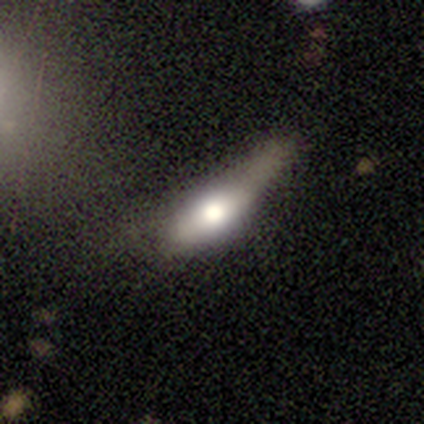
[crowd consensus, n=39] Smooth or featured?
  - smooth: 51% *
  - featured or disk: 33%
  - star or artifact: 15%
How rounded?
  - in between: 60% *
  - cigar-shaped: 35%
  - round: 5%
Merging?
  - none: 42% *
  - minor disturbance: 36%
  - major disturbance: 18%
  - merger: 3%